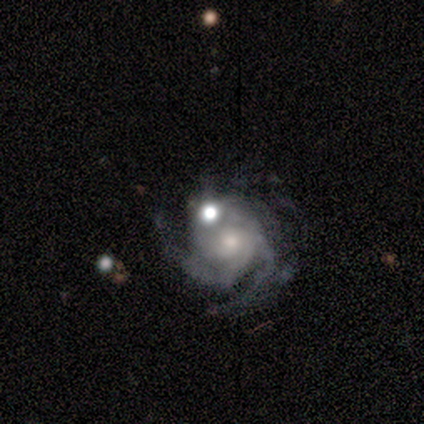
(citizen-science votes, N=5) A featured or disk galaxy (100%) with no bar (80%), 3 (40%, tied with can't tell) tight (80%) spiral arms (100%) and a moderate central bulge (40%, tied with small). Merging: minor disturbance (40%, tied with merger).